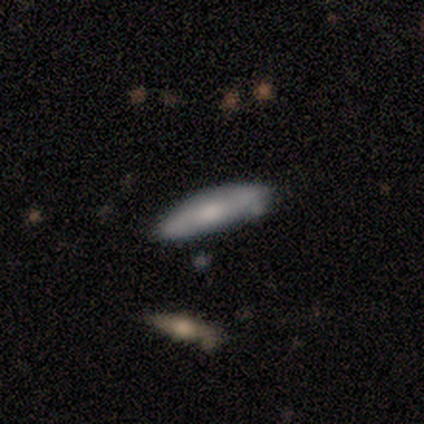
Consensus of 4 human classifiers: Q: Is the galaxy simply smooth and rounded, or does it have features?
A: smooth — 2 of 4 (50%, tied with featured or disk).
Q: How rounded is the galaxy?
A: cigar-shaped — 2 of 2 (100%).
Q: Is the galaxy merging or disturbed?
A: none — 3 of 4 (75%).